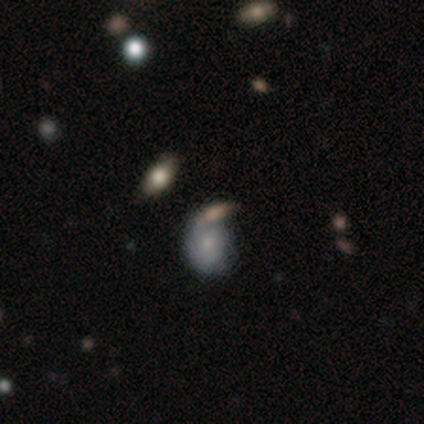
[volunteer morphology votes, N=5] Volunteers were most divided on "how rounded" (2-way tie): round: 50%, in between: 50%, cigar-shaped: 0%. More confident: smooth or featured — smooth (80%); merging — minor disturbance (50%).